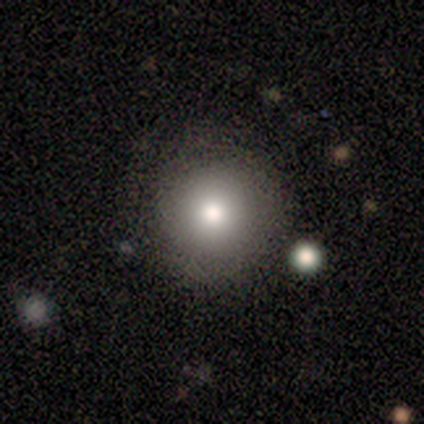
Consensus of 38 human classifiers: Smooth or featured?
  - smooth: 82% *
  - star or artifact: 11%
  - featured or disk: 8%
How rounded?
  - round: 100% *
  - in between: 0%
  - cigar-shaped: 0%
Merging?
  - none: 85% *
  - minor disturbance: 12%
  - major disturbance: 3%
  - merger: 0%